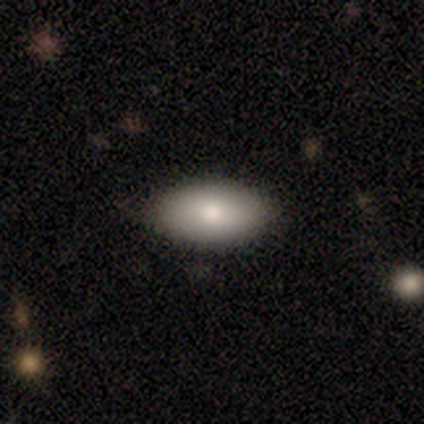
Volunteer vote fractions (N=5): Morphology: type=smooth (100%); roundness=in between (100%); merging=none (80%).